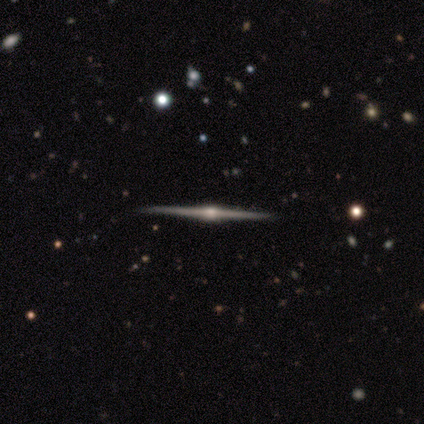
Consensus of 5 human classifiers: Smooth or featured?
  - featured or disk: 100% *
  - smooth: 0%
  - star or artifact: 0%
Edge-on disk?
  - yes: 100% *
  - no: 0%
Edge-on bulge?
  - rounded: 100% *
  - boxy: 0%
  - none: 0%
Merging?
  - none: 80% *
  - minor disturbance: 20%
  - major disturbance: 0%
  - merger: 0%